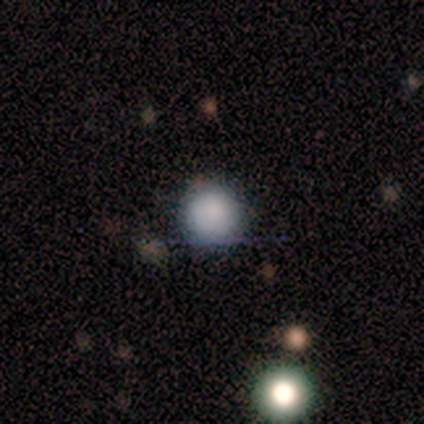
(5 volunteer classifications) Overall: smooth (80%). How rounded: round (100%). Merging: none (75%).